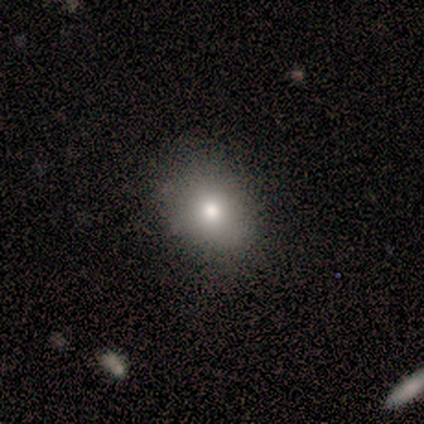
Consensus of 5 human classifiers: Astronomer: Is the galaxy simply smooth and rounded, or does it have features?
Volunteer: smooth — 60%.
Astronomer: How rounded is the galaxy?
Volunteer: in between — 67%.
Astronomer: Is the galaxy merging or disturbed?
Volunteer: none — 75%.